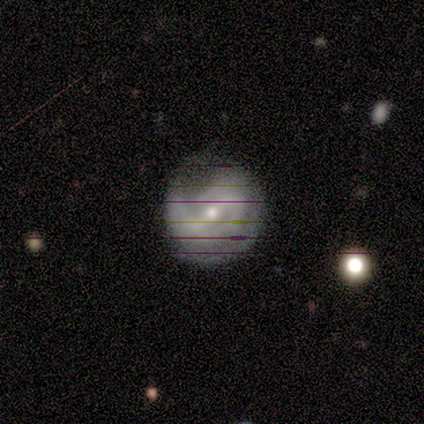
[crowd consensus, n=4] Smooth or featured?
  - featured or disk: 100% *
  - smooth: 0%
  - star or artifact: 0%
Edge-on disk?
  - no: 100% *
  - yes: 0%
Bar?
  - strong: 50% * (tied)
  - weak: 50% * (tied)
  - no: 0%
Spiral arms?
  - yes: 50% * (tied)
  - no: 50% * (tied)
Spiral winding?
  - medium: 50% * (tied)
  - loose: 50% * (tied)
  - tight: 0%
Spiral arm count?
  - 2: 100% *
  - 1: 0%
  - 3: 0%
  - 4: 0%
  - more than 4: 0%
  - can't tell: 0%
Bulge size?
  - moderate: 50% * (tied)
  - small: 50% * (tied)
  - dominant: 0%
  - large: 0%
  - none: 0%
Merging?
  - none: 100% *
  - minor disturbance: 0%
  - major disturbance: 0%
  - merger: 0%